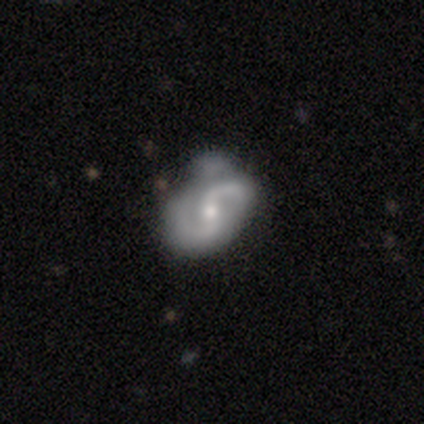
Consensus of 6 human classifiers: Overall: featured or disk (83%). Edge-on disk: no (100%). Bar: weak (40%, tied with no). Spiral arms: yes (100%). Spiral arm count: 2 (80%). Spiral winding: medium (40%, tied with loose). Bulge size: small (60%; moderate 40%). Merging: none (50%; minor disturbance 33%).